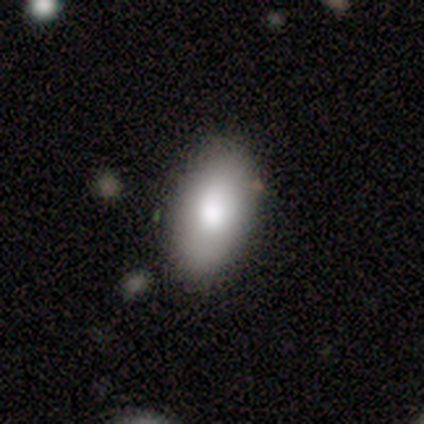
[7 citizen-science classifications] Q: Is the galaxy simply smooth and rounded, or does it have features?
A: smooth — 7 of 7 (100%).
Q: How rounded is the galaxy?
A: in between — 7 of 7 (100%).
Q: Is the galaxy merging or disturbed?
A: none — 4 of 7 (57%).